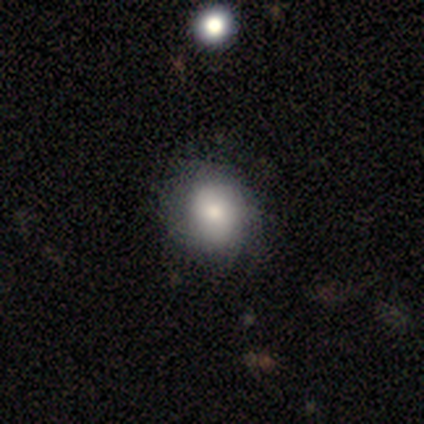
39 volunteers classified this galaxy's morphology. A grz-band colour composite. It shows a smooth galaxy with no disk features (79%) that is round (74%). Merging: none (68%).